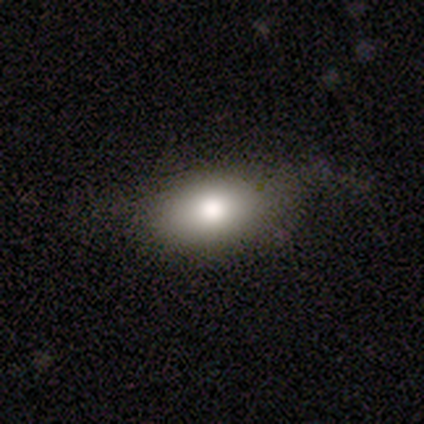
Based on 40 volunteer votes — Smooth or featured? 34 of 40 (85%) said smooth. How rounded? 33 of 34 (97%) said in between. Merging? 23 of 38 (61%) said none.